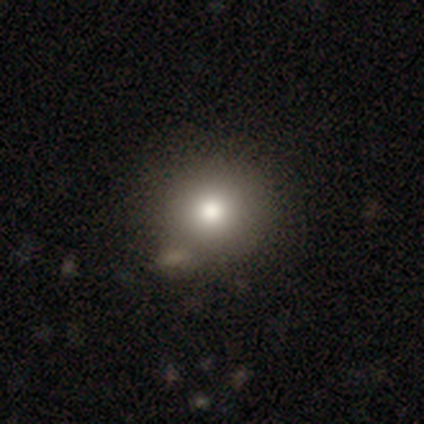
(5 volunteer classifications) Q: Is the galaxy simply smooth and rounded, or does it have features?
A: smooth — 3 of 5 (60%).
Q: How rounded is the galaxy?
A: round — 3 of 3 (100%).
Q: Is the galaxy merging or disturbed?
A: none — 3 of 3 (100%).